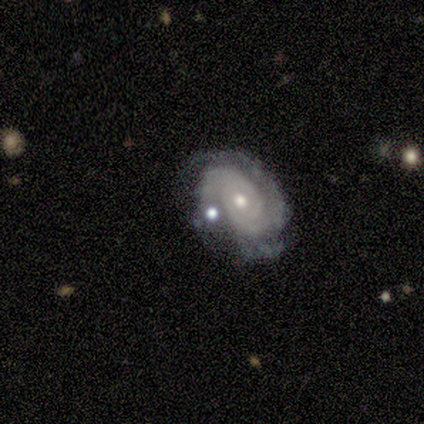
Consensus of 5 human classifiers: This appears to be a featured or disk galaxy (100%) with no bar (60%), 2 (40%, tied with can't tell) tight (60%) spiral arms (100%) and a moderate central bulge (80%). Merging: none (80%).